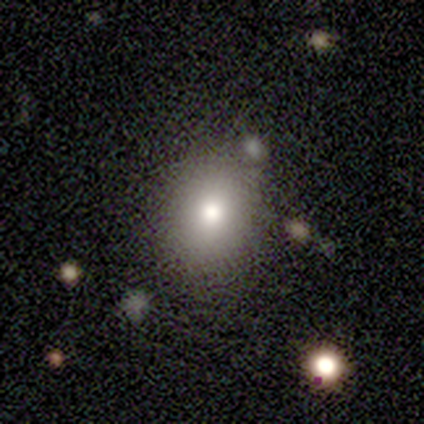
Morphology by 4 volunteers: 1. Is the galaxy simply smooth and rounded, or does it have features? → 50% smooth (tied), 50% star or artifact (tied), 0% featured or disk.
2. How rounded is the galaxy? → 50% round (tied), 50% in between (tied), 0% cigar-shaped.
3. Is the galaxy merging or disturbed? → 100% none, 0% minor disturbance, 0% major disturbance, 0% merger.